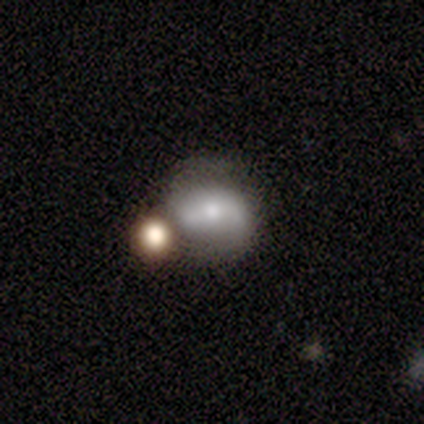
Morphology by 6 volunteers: A featured or disk galaxy (100%) with a weak bar (40%, tied with no), 2 (100%) loose (75%) spiral arms (80%) and a moderate central bulge (60%).

Vote fractions:
- Smooth or featured? featured or disk: 100% / smooth: 0% / star or artifact: 0%
- Edge-on disk? no: 83% / yes: 17%
- Bar? weak: 40% (tied) / no: 40% (tied) / strong: 20%
- Spiral arms? yes: 80% / no: 20%
- Spiral winding? loose: 75% / medium: 25% / tight: 0%
- Spiral arm count? 2: 100% / 1: 0% / 3: 0% / 4: 0% / more than 4: 0% / can't tell: 0%
- Bulge size? moderate: 60% / small: 40% / dominant: 0% / large: 0% / none: 0%
- Merging? merger: 50% / none: 33% / minor disturbance: 17% / major disturbance: 0%